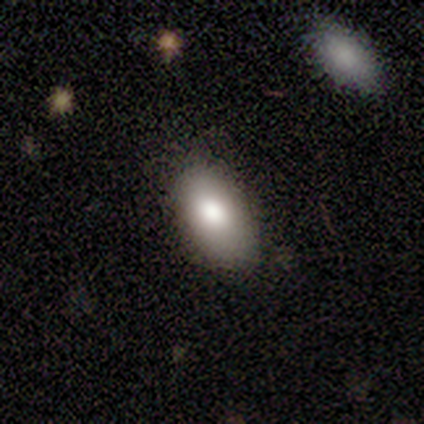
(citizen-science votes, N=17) This is clearly a smooth galaxy (82%). How rounded: clearly in between (100%). Merging: clearly none (88%).